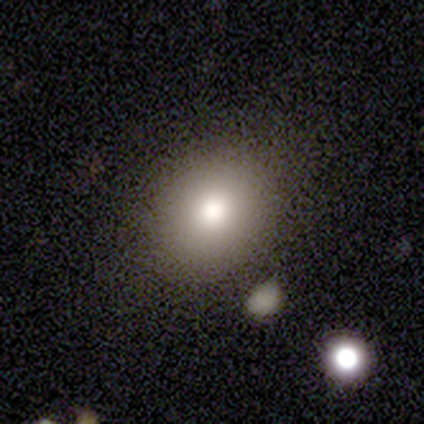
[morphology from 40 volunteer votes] Smooth or featured?
  - smooth: 78% *
  - star or artifact: 12%
  - featured or disk: 10%
How rounded?
  - in between: 52% *
  - round: 48%
  - cigar-shaped: 0%
Merging?
  - none: 80% *
  - minor disturbance: 14%
  - major disturbance: 3%
  - merger: 3%